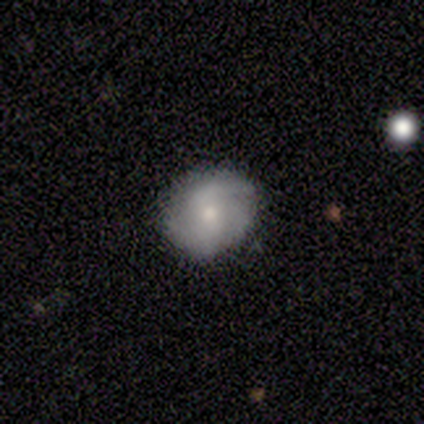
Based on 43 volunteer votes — Smooth or featured: featured or disk — 60% (smooth — 35%)
Edge-on disk: no — 100%
Bar: no — 58% (weak — 38%)
Spiral arms: yes — 88% (no — 12%)
Spiral winding: medium — 43% (tight — 30%)
Spiral arm count: 2 — 43% (3 — 39%)
Bulge size: moderate — 58% (small — 35%)
Merging: none — 78% (minor disturbance — 15%)